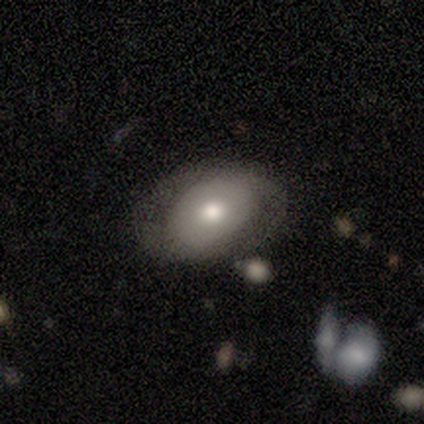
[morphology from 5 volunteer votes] smooth-or-featured: smooth: 80% | featured or disk: 20% | star or artifact: 0%
  how-rounded: in between: 100% | round: 0% | cigar-shaped: 0%
  merging: none: 80% | minor disturbance: 20% | major disturbance: 0% | merger: 0%